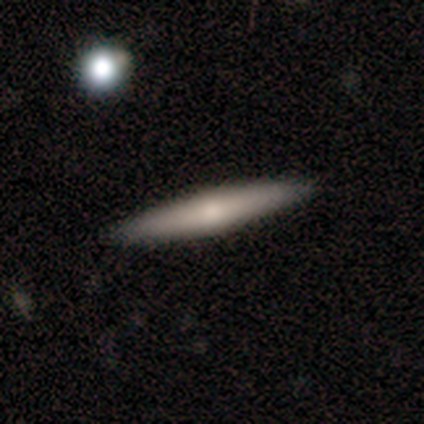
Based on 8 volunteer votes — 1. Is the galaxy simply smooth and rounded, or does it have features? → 62% featured or disk, 38% smooth, 0% star or artifact.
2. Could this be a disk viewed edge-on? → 100% yes, 0% no.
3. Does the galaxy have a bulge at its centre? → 60% rounded, 40% none, 0% boxy.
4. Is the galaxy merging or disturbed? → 100% none, 0% minor disturbance, 0% major disturbance, 0% merger.